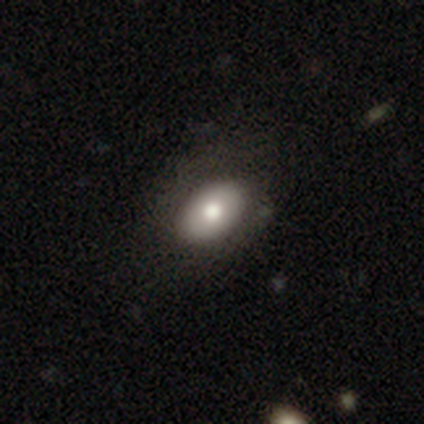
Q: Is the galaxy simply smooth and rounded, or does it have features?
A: smooth — 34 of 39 (87%).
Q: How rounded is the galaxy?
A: in between — 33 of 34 (97%).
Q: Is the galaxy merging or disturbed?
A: none — 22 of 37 (59%).